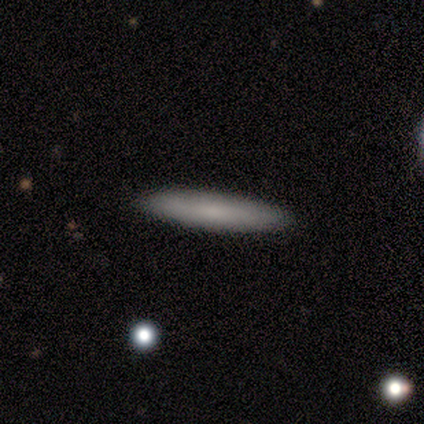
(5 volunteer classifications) Overall: smooth (80%). How rounded: cigar-shaped (100%). Merging: none (80%).